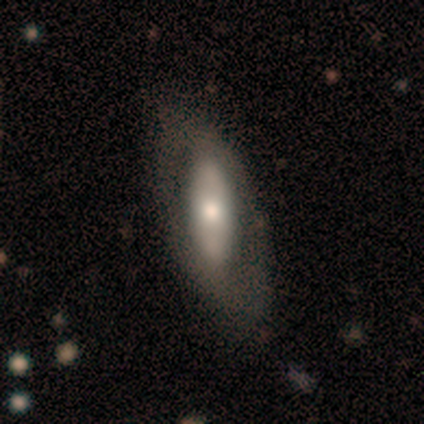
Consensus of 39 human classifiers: Morphology: type=featured or disk (56%); edge-on=no (73%); bar=strong (44%); spiral arms=no (75%); bulge=moderate (69%); merging=none (66%).